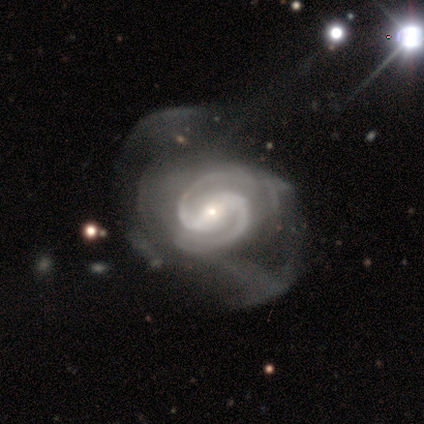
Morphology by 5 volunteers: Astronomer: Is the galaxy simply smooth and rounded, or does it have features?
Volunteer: featured or disk — 80%.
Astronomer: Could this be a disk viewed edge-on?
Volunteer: no — 100%.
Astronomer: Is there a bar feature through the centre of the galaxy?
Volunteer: weak — 75%.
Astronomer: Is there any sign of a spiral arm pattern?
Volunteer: yes — 75%.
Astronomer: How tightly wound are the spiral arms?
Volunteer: medium — 100%.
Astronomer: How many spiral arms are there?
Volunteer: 2 — 100%.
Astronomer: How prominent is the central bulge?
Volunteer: small — 75%.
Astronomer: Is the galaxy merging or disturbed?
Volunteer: major disturbance — 75%.